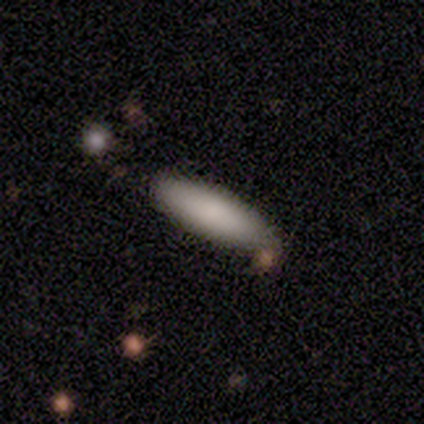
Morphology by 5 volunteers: Smooth or featured?
  - smooth: 100% *
  - featured or disk: 0%
  - star or artifact: 0%
How rounded?
  - cigar-shaped: 60% *
  - in between: 40%
  - round: 0%
Merging?
  - none: 100% *
  - minor disturbance: 0%
  - major disturbance: 0%
  - merger: 0%